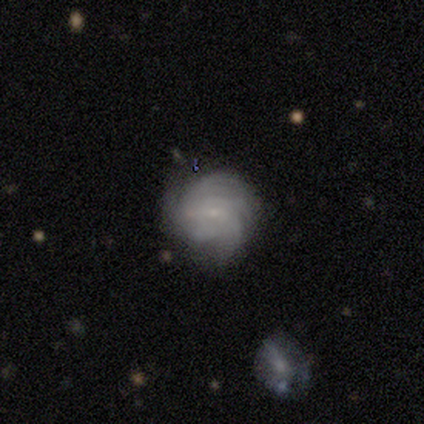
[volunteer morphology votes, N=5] Smooth or featured? featured or disk (80%)
Edge-on disk? no (100%)
Bar? no (75%)
Spiral arms? yes (75%)
Spiral winding? tight (67%)
Spiral arm count? more than 4 (67%)
Bulge size? small (75%)
Merging? none (80%)